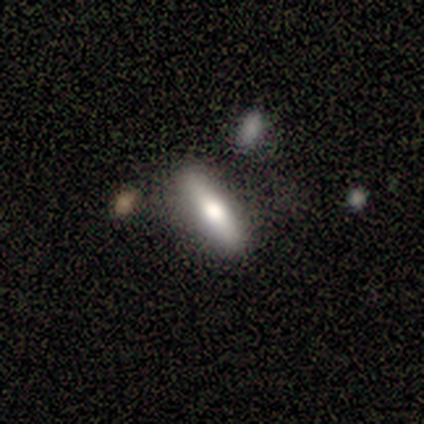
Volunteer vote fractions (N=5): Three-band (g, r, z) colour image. It shows a smooth galaxy with no disk features (60%) that is in between round and cigar-shaped (100%). Merging: none (80%).